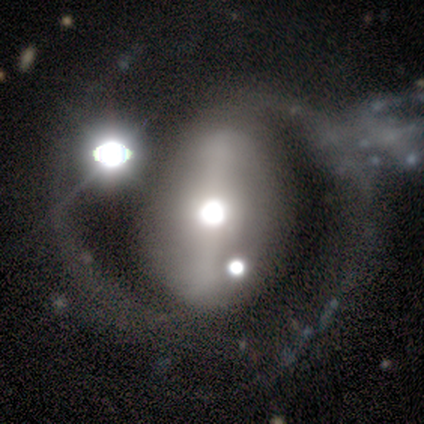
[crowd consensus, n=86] Smooth or featured? 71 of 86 (83%) said featured or disk. Edge-on disk? 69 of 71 (97%) said no. Bar? 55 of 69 (80%) said strong. Spiral arms? 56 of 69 (81%) said yes. Spiral winding? 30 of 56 (54%) said medium. Spiral arm count? 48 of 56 (86%) said 2. Bulge size? 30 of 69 (43%) said moderate. Merging? 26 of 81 (32%) said none.